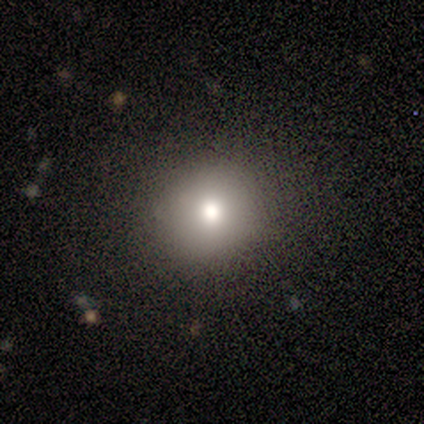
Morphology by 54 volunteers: smooth 72%, featured or disk 15%, star or artifact 13%. Down the decision tree: how rounded — round (95%); merging — none (89%).